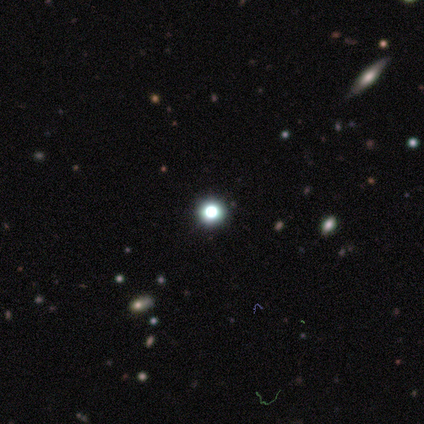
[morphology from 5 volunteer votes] A star or artifact, not a galaxy (100%).

Vote fractions:
- Smooth or featured? star or artifact: 100% / smooth: 0% / featured or disk: 0%